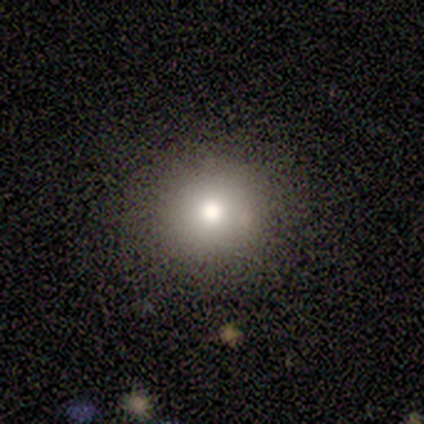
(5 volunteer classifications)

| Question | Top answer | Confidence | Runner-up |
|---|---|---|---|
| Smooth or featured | smooth | 100% | — |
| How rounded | round | 100% | — |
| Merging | none | 60% | minor disturbance (20%) |